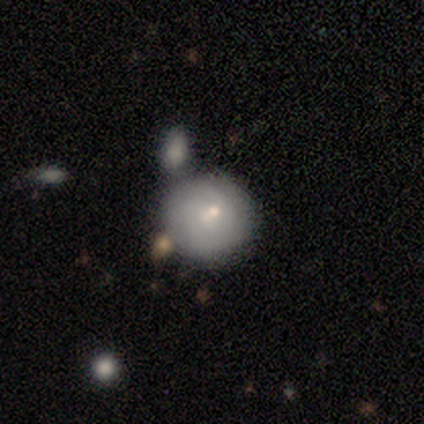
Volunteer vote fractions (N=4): A smooth galaxy with no disk features (75%) that is round (100%).

Vote fractions:
- Smooth or featured? smooth: 75% / featured or disk: 25% / star or artifact: 0%
- How rounded? round: 100% / in between: 0% / cigar-shaped: 0%
- Merging? none: 50% (tied) / merger: 50% (tied) / minor disturbance: 0% / major disturbance: 0%